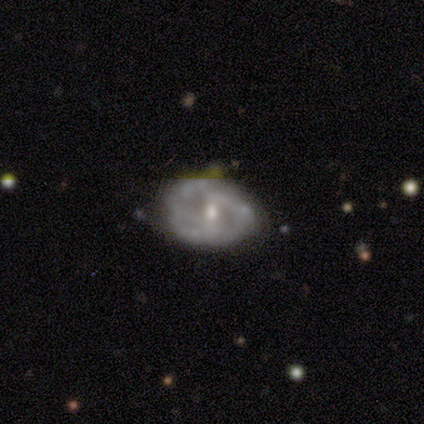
smooth_or_featured: featured or disk (p=0.71) [alt: smooth p=0.14]
disk_edge_on: no (p=1.00)
bar: no (p=0.80) [alt: weak p=0.20]
has_spiral_arms: no (p=0.60) [alt: yes p=0.40]
bulge_size: small (p=0.60) [alt: moderate p=0.40]
merging: none (p=0.83) [alt: minor disturbance p=0.17]